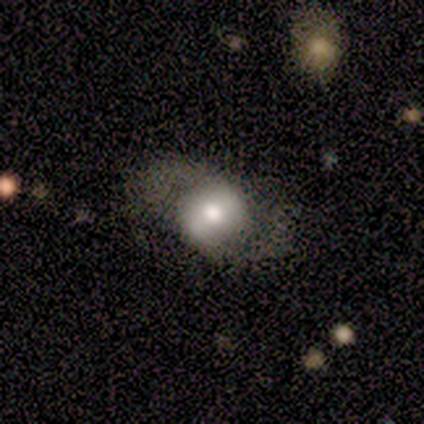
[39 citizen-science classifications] This appears to be a featured or disk galaxy (69%) with a weak bar (44%), 2 (89%) medium (47%, tied with loose) spiral arms (76%) and a moderate central bulge (60%). Merging: none (70%).